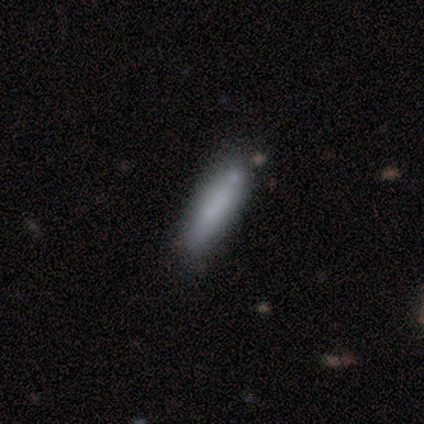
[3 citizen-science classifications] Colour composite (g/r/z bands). It shows a smooth galaxy with no disk features (100%) that is cigar-shaped (100%). Merging: none (67%).